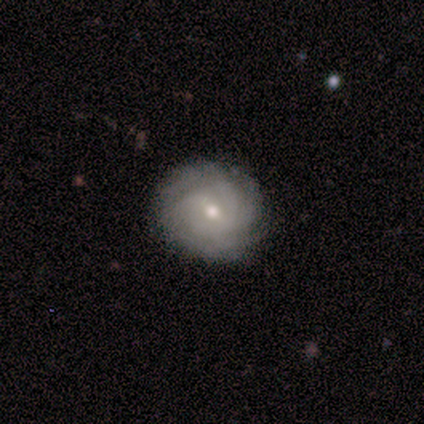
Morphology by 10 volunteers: Smooth or featured? featured or disk (80%)
Edge-on disk? no (100%)
Bar? weak (62%)
Spiral arms? yes (88%)
Spiral winding? tight (86%)
Spiral arm count? 4 (57%)
Bulge size? small (62%)
Merging? none (89%)